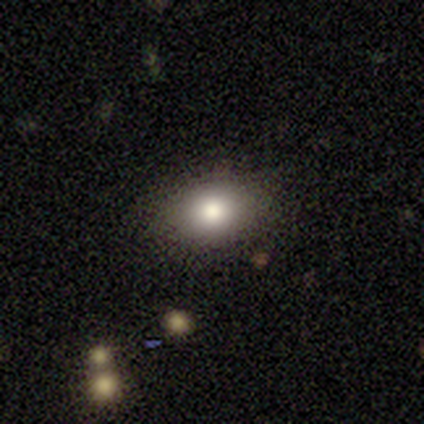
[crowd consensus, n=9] smooth_or_featured: smooth (p=0.89) [alt: star or artifact p=0.11]
how_rounded: in between (p=0.62) [alt: round p=0.38]
merging: none (p=0.88) [alt: minor disturbance p=0.12]